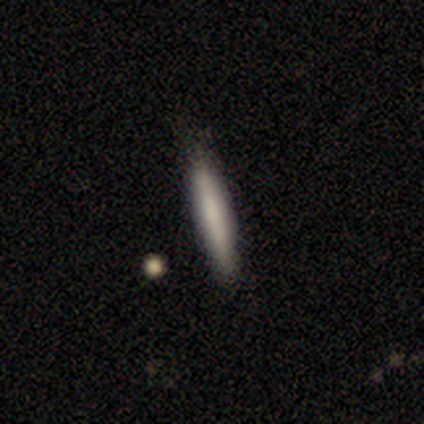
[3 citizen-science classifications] featured or disk 67%, smooth 33%, star or artifact 0%. Down the decision tree: edge-on disk — yes (100%); edge-on bulge — boxy (50%, tied with none); merging — none (67%).